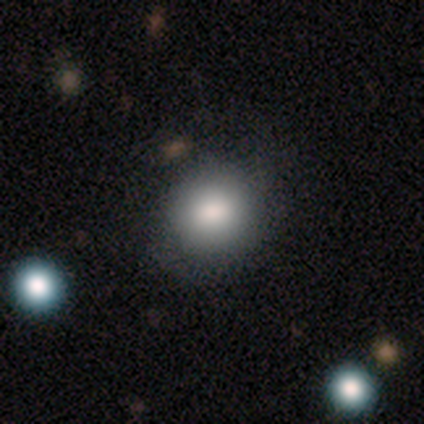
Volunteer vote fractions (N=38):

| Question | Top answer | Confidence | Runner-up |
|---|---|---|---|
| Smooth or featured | smooth | 74% | star or artifact (16%) |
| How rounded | round | 68% | in between (32%) |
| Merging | none | 81% | minor disturbance (9%) |